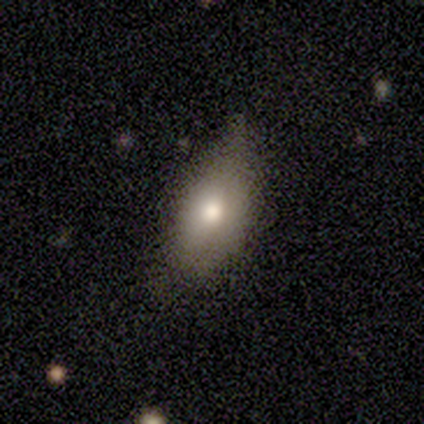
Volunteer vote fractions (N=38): Volunteers were most divided on "merging": none: 55%, minor disturbance: 30%, major disturbance: 15%, merger: 0%. More confident: how rounded — in between (90%); smooth or featured — smooth (76%).